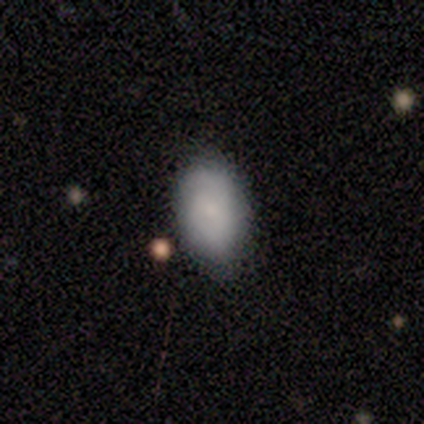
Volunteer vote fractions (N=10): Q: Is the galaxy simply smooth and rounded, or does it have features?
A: smooth — 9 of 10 (90%).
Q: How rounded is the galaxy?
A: in between — 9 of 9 (100%).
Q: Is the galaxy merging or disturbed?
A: none — 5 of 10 (50%).